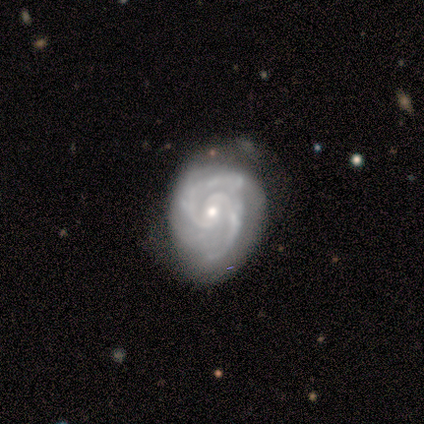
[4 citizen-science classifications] Morphology: type=featured or disk (100%); edge-on=no (100%); bar=no (75%); spiral arms=yes (100%); winding=medium (75%); arm count=2 (100%); bulge=moderate (75%); merging=none (100%).